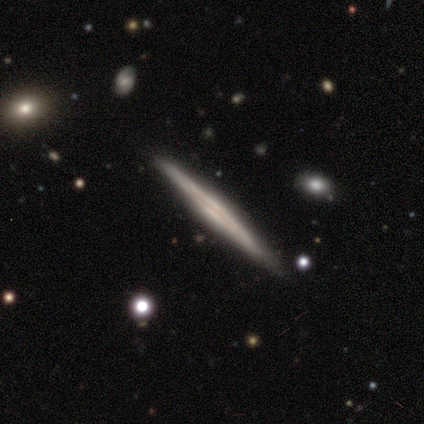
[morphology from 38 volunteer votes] Smooth or featured: featured or disk — 84% (smooth — 13%)
Edge-on disk: yes — 100%
Edge-on bulge: none — 62% (rounded — 28%)
Merging: none — 86% (minor disturbance — 11%)